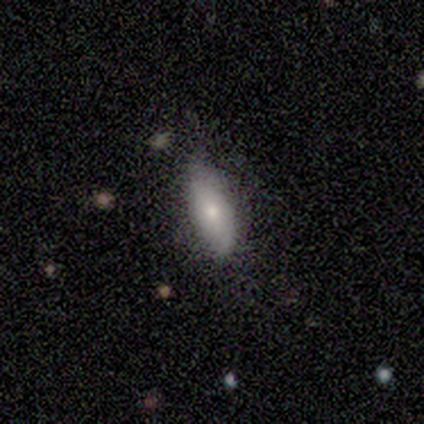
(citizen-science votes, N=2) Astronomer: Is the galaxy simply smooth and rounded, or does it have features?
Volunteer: featured or disk — 50%, tied with star or artifact at 50%.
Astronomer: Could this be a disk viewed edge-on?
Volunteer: no — 100%.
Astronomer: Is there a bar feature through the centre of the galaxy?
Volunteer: no — 100%.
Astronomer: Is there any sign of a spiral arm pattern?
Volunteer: no — 100%.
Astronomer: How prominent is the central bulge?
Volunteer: small — 100%.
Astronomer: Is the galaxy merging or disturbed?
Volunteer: none — 100%.